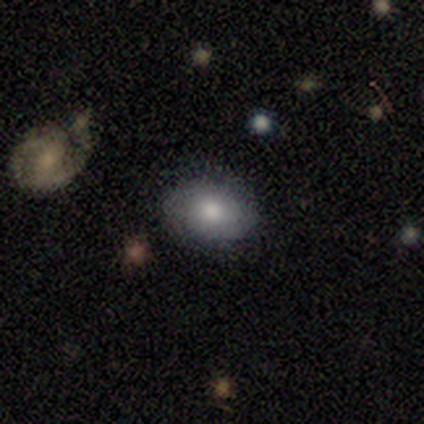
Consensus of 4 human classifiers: Smooth or featured? 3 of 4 (75%) said smooth. How rounded? 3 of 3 (100%) said in between. Merging? 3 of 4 (75%) said none.